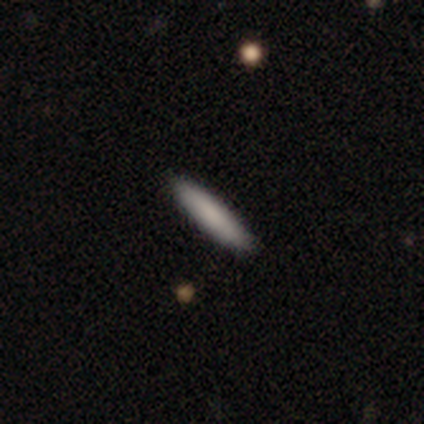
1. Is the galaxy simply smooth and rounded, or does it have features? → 60% smooth, 40% featured or disk, 0% star or artifact.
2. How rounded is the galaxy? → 100% cigar-shaped, 0% round, 0% in between.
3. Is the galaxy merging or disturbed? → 100% none, 0% minor disturbance, 0% major disturbance, 0% merger.